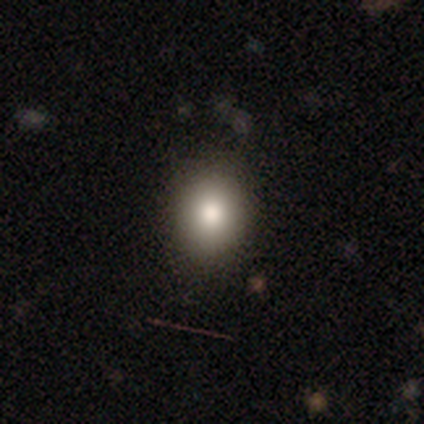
Morphology: type=smooth (68%); roundness=in between (53%); merging=none (94%).